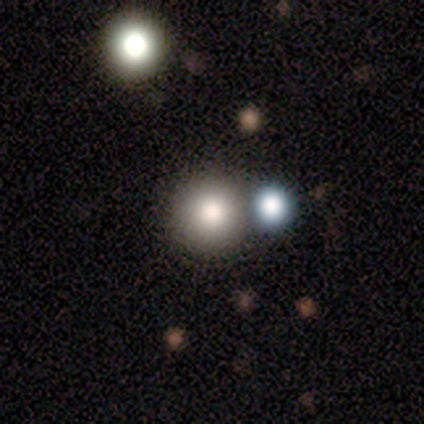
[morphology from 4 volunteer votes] smooth-or-featured: smooth: 100% | featured or disk: 0% | star or artifact: 0%
  how-rounded: round: 100% | in between: 0% | cigar-shaped: 0%
  merging: none: 50% (tied) | merger: 50% (tied) | minor disturbance: 0% | major disturbance: 0%